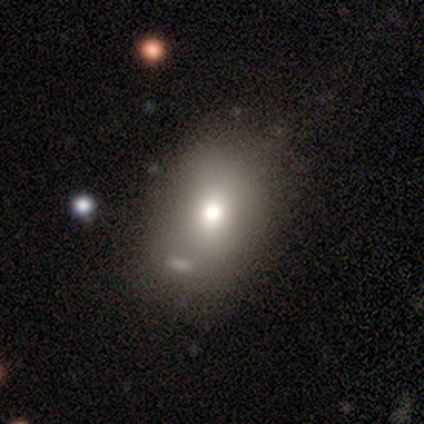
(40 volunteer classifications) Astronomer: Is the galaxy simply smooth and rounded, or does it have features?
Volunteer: smooth — 70%.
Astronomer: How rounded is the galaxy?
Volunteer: in between — 79%.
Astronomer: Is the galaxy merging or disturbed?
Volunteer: none — 67%.